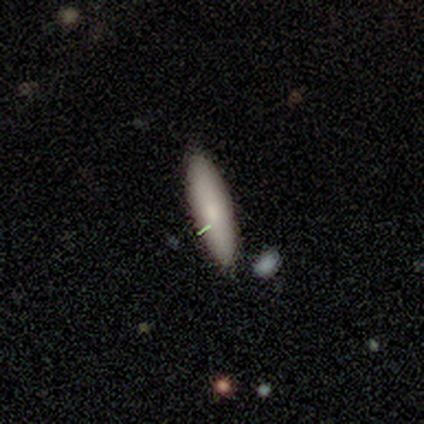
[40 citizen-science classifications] A smooth galaxy with no disk features (68%) that is cigar-shaped (59%).

Vote fractions:
- Smooth or featured? smooth: 68% / featured or disk: 20% / star or artifact: 12%
- How rounded? cigar-shaped: 59% / in between: 41% / round: 0%
- Merging? none: 89% / merger: 6% / minor disturbance: 3% / major disturbance: 3%